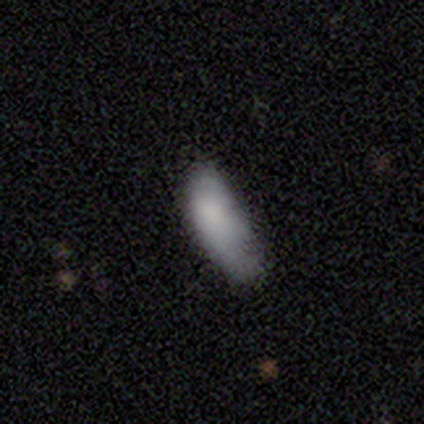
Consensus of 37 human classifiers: Volunteers were most divided on "merging" (2-way tie): none: 35%, minor disturbance: 35%, major disturbance: 26%, merger: 3%. More confident: how rounded — in between (83%); smooth or featured — smooth (81%).